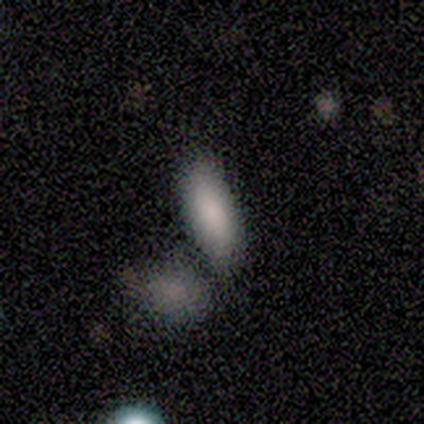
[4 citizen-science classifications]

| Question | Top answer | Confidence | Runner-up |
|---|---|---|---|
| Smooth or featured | smooth | 100% | — |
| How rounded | in between | 100% | — |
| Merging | none | 75% | minor disturbance (25%) |